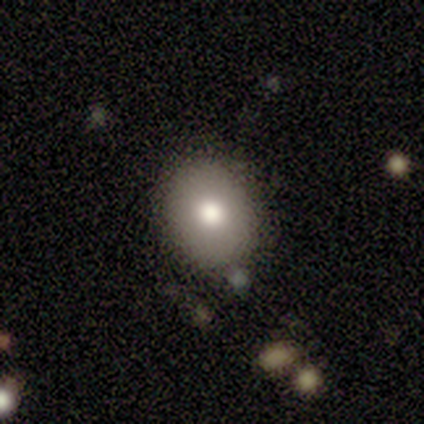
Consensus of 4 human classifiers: Smooth or featured: smooth — 100%
How rounded: round — 75% (in between — 25%)
Merging: none — 50% (minor disturbance — 25%)